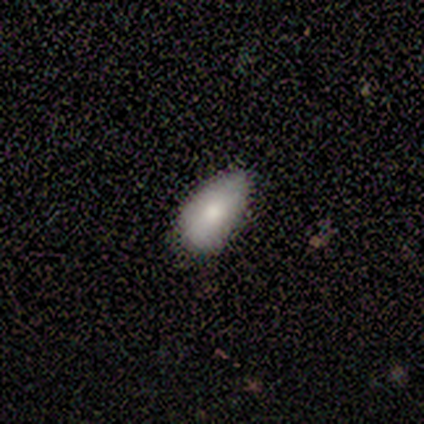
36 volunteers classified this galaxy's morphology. This appears to be a smooth galaxy with no disk features (81%) that is in between round and cigar-shaped (100%). Merging: none (50%, tied with minor disturbance).